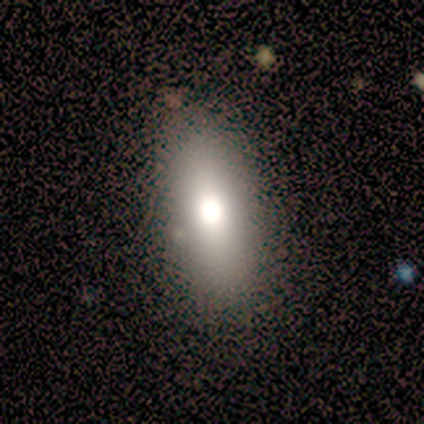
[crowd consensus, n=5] Smooth or featured: featured or disk — 60% (smooth — 40%)
Edge-on disk: no — 67% (yes — 33%)
Bar: no — 100%
Spiral arms: no — 100%
Bulge size: large — 100%
Merging: none — 60% (major disturbance — 40%)